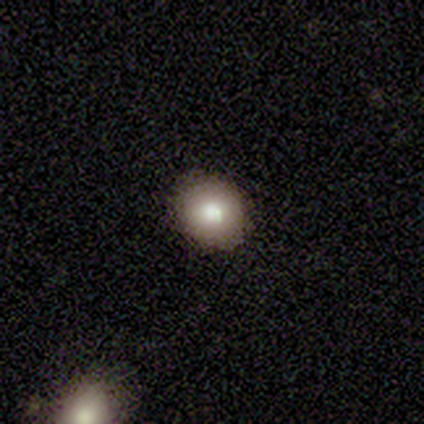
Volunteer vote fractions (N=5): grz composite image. It shows a smooth galaxy with no disk features (80%) that is round (50%, tied with in between). Merging: none (50%, tied with minor disturbance).